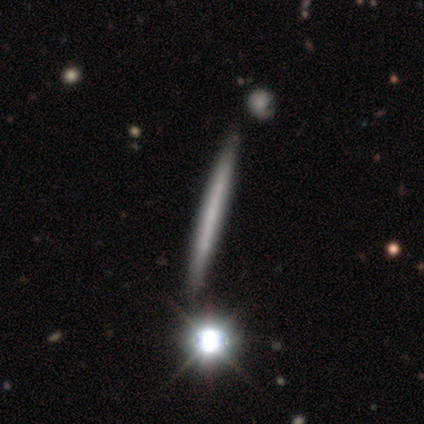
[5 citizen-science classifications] Q: Smooth or featured?
A: smooth (60%); runner-up: featured or disk (20%)
Q: How rounded?
A: cigar-shaped (100%)
Q: Merging?
A: none (75%); runner-up: minor disturbance (25%)